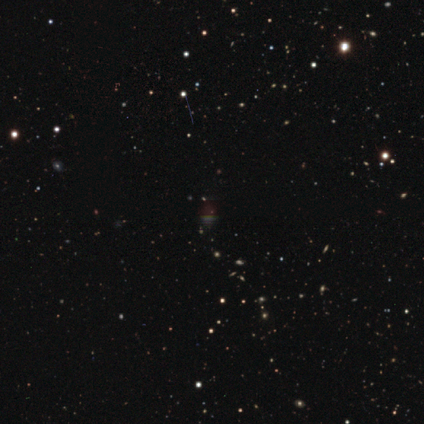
star or artifact 100%, smooth 0%, featured or disk 0%.